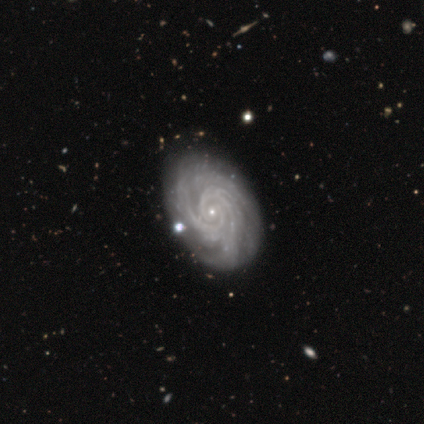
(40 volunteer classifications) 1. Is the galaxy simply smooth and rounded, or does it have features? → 95% featured or disk, 5% smooth, 0% star or artifact.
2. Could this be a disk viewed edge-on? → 97% no, 3% yes.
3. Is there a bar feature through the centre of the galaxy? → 78% no, 14% weak, 8% strong.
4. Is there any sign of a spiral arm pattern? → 100% yes, 0% no.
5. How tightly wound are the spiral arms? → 84% tight, 16% medium, 0% loose.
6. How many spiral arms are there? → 27% 2 (tied), 27% 3 (tied), 19% more than 4, 14% 4, 14% can't tell, 0% 1.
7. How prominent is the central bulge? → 92% small, 5% moderate, 3% none, 0% dominant, 0% large.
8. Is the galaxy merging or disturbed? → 72% none, 5% minor disturbance, 2% merger, 0% major disturbance.